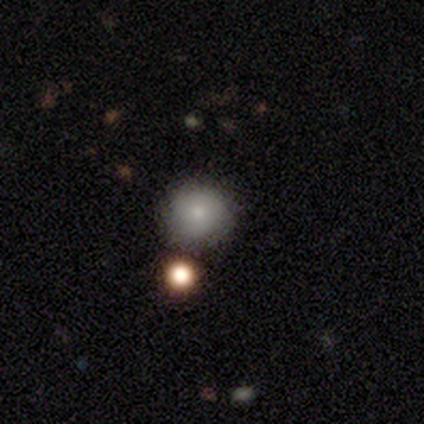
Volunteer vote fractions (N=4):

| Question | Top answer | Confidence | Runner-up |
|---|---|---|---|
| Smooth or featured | smooth | 75% | star or artifact (25%) |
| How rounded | round | 100% | — |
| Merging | none | 67% | merger (33%) |